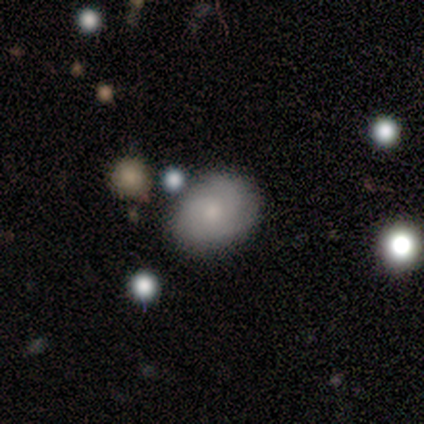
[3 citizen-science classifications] Morphology: type=smooth (67%); roundness=in between (100%); merging=none (100%).